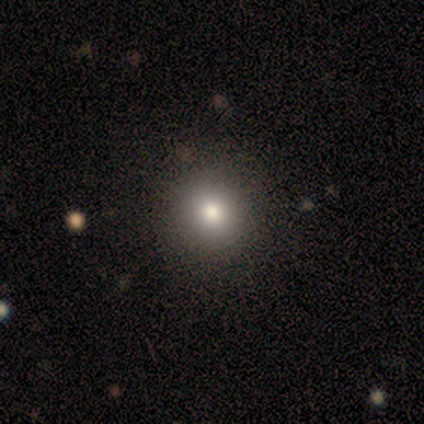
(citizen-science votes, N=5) Q: Smooth or featured?
A: smooth (80%); runner-up: star or artifact (20%)
Q: How rounded?
A: round (75%); runner-up: in between (25%)
Q: Merging?
A: none (75%); runner-up: minor disturbance (25%)